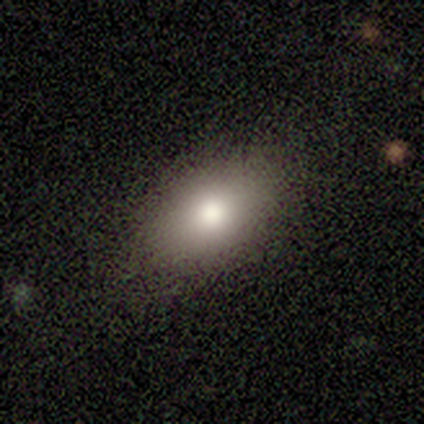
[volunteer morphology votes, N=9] smooth-or-featured: smooth: 89% | featured or disk: 11% | star or artifact: 0%
  how-rounded: in between: 100% | round: 0% | cigar-shaped: 0%
  merging: none: 89% | minor disturbance: 11% | major disturbance: 0% | merger: 0%